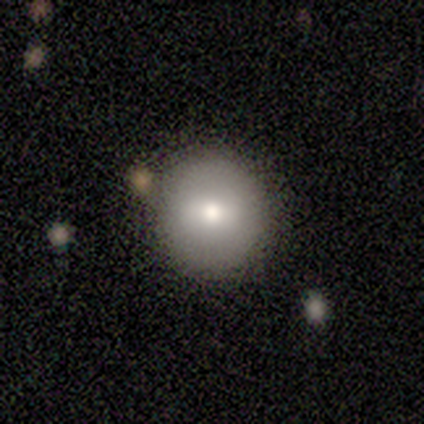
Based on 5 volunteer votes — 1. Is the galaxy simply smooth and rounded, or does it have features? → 100% smooth, 0% featured or disk, 0% star or artifact.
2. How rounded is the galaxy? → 100% round, 0% in between, 0% cigar-shaped.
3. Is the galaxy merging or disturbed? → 80% none, 20% minor disturbance, 0% major disturbance, 0% merger.